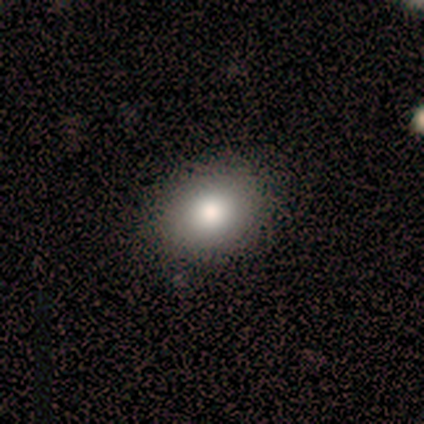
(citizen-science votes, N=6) smooth-or-featured: smooth: 67% | star or artifact: 33% | featured or disk: 0%
  how-rounded: round: 75% | in between: 25% | cigar-shaped: 0%
  merging: none: 100% | minor disturbance: 0% | major disturbance: 0% | merger: 0%